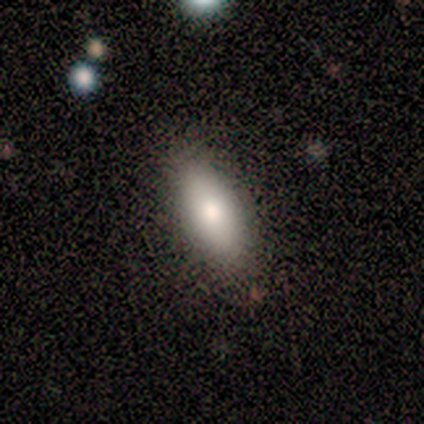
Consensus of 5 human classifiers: Overall: smooth (100%). How rounded: in between (100%). Merging: none (100%).